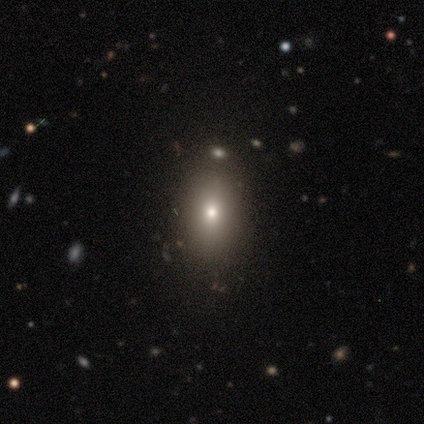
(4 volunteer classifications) smooth 75%, star or artifact 25%, featured or disk 0%. Down the decision tree: how rounded — in between (100%); merging — none (100%).